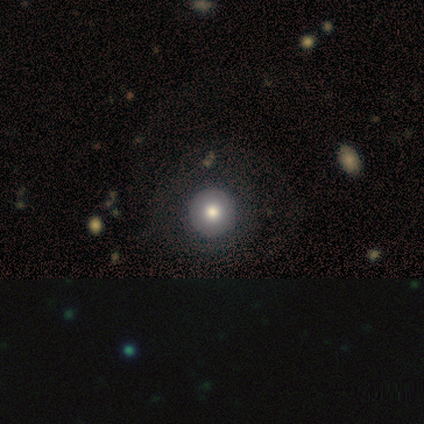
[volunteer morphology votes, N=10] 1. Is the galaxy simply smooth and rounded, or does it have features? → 50% smooth, 30% featured or disk, 20% star or artifact.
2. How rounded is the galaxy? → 100% round, 0% in between, 0% cigar-shaped.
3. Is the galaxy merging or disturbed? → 100% none, 0% minor disturbance, 0% major disturbance, 0% merger.